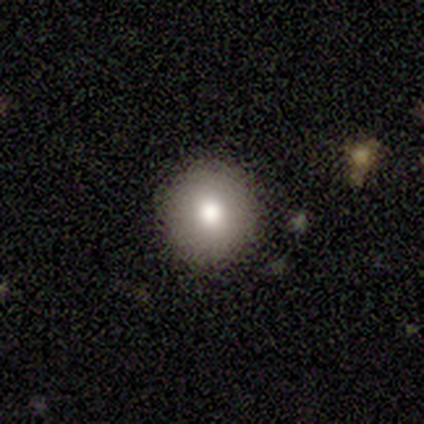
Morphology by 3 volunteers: type=smooth (100%); roundness=round (100%); merging=none (100%).